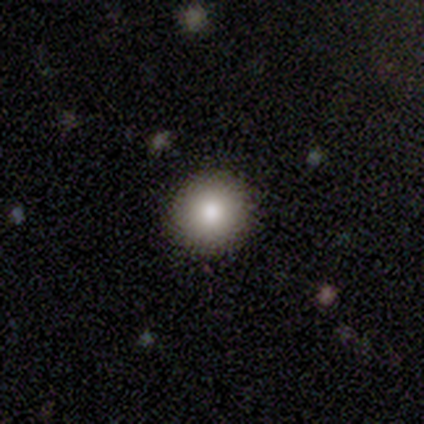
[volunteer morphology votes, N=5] smooth-or-featured: smooth: 60% | star or artifact: 40% | featured or disk: 0%
  how-rounded: round: 100% | in between: 0% | cigar-shaped: 0%
  merging: none: 100% | minor disturbance: 0% | major disturbance: 0% | merger: 0%